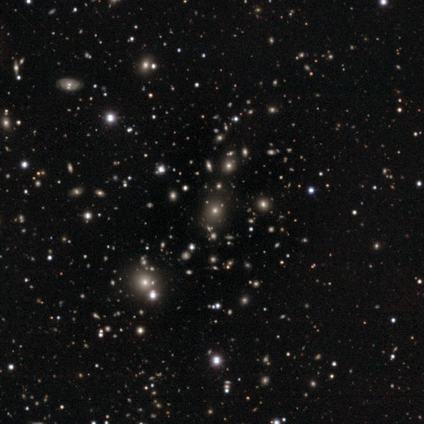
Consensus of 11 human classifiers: Smooth or featured?
  - smooth: 55% *
  - star or artifact: 45%
  - featured or disk: 0%
How rounded?
  - round: 83% *
  - in between: 17%
  - cigar-shaped: 0%
Merging?
  - none: 100% *
  - minor disturbance: 0%
  - major disturbance: 0%
  - merger: 0%